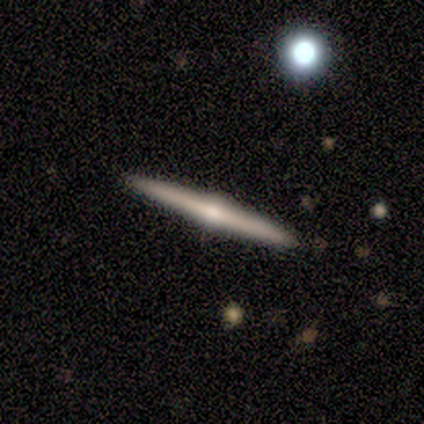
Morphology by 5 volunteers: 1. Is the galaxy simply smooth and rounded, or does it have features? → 80% featured or disk, 20% smooth, 0% star or artifact.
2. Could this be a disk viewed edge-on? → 100% yes, 0% no.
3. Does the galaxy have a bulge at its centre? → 100% rounded, 0% boxy, 0% none.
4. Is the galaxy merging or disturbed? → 100% none, 0% minor disturbance, 0% major disturbance, 0% merger.